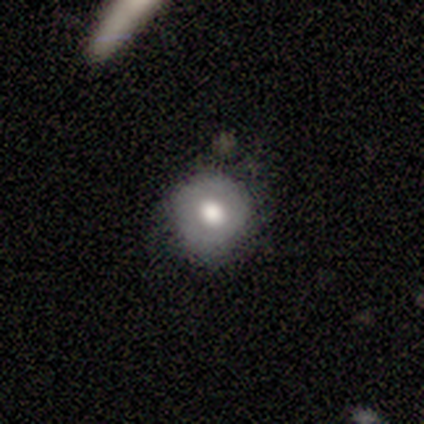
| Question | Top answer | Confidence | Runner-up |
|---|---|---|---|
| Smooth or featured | smooth | 68% | featured or disk (22%) |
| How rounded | round | 88% | in between (12%) |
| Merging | none | 64% | minor disturbance (33%) |